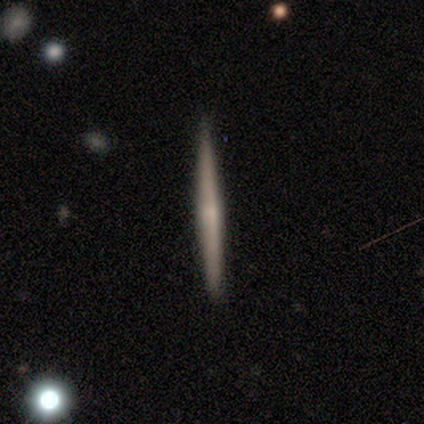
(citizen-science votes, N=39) This appears to be a featured or disk galaxy (59%) viewed edge-on (100%) with no central bulge (57%). Merging: none (92%).